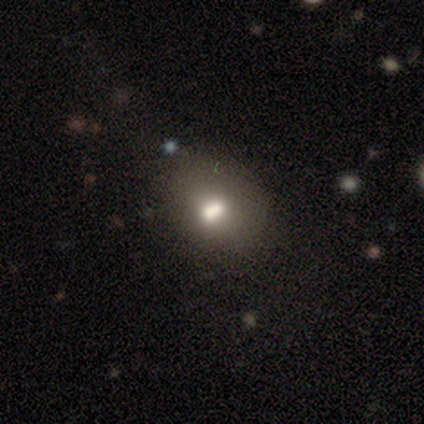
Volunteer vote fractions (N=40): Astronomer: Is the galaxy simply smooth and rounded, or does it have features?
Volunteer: smooth — 60%.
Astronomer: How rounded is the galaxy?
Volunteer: in between — 62%.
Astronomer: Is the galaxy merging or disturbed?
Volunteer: none — 42% (runner-up: merger, 18%).